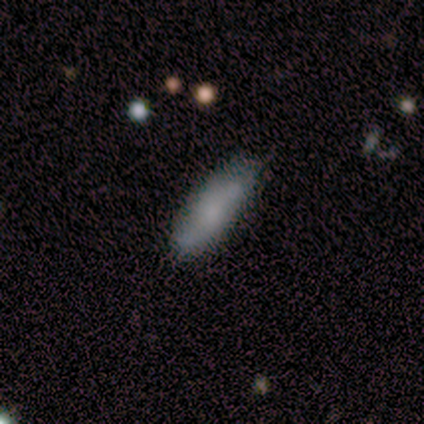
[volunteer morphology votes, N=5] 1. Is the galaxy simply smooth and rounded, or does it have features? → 60% smooth, 20% featured or disk, 20% star or artifact.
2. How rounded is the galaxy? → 100% cigar-shaped, 0% round, 0% in between.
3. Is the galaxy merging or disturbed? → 50% none, 25% minor disturbance, 25% major disturbance, 0% merger.